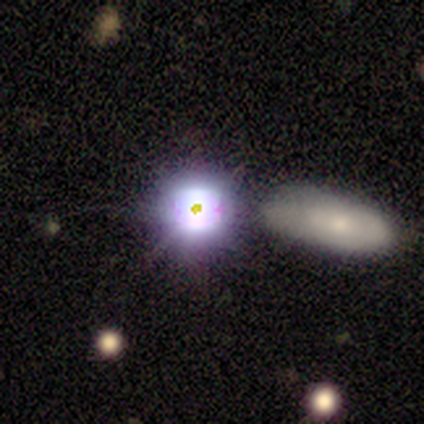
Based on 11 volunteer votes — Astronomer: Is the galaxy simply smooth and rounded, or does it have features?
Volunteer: star or artifact — 55%.